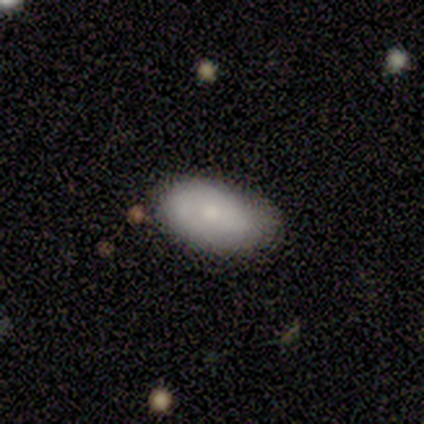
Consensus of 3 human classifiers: Smooth or featured: smooth — 67% (featured or disk — 33%)
How rounded: in between — 100%
Merging: none — 100%